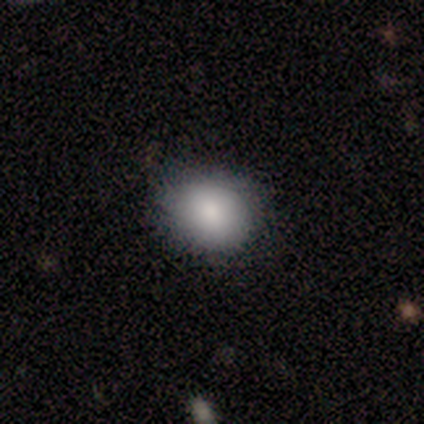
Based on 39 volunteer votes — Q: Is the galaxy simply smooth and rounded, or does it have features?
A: smooth — 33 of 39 (85%).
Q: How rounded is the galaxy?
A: round — 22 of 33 (67%).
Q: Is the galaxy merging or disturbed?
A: none — 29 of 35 (83%).